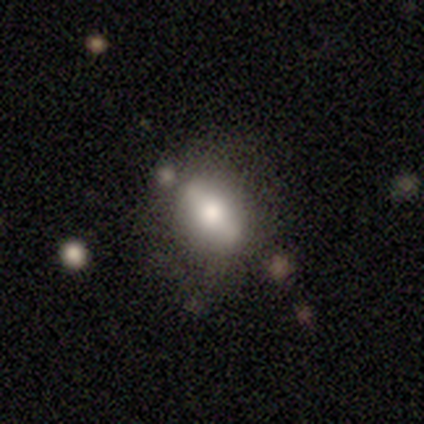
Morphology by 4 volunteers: Smooth or featured: smooth — 75% (featured or disk — 25%)
How rounded: round — 67% (in between — 33%)
Merging: none — 75% (minor disturbance — 25%)